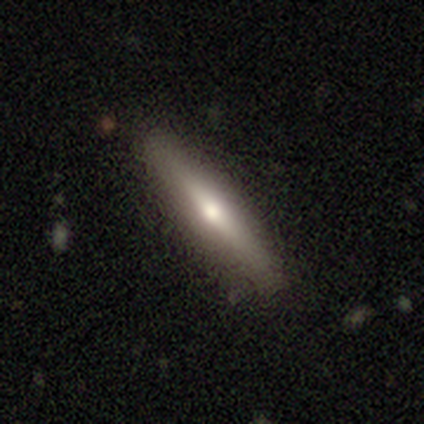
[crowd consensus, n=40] This appears to be a smooth galaxy with no disk features (48%, tied with featured or disk) that is cigar-shaped (79%). Merging: none (61%).